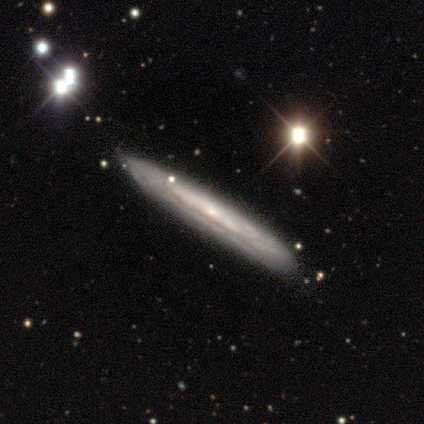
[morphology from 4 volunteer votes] smooth_or_featured: featured or disk (p=0.75) [alt: star or artifact p=0.25]
disk_edge_on: yes (p=0.67) [alt: no p=0.33]
edge_on_bulge: none (p=0.50) [tied with: rounded p=0.50]
merging: none (p=1.00)